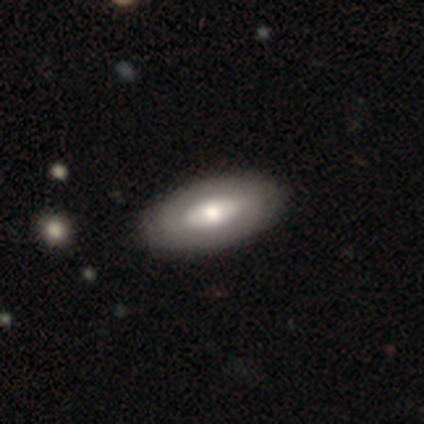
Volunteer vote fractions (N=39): Overall: smooth (51%; featured or disk 49%). How rounded: in between (90%). Merging: none (69%).